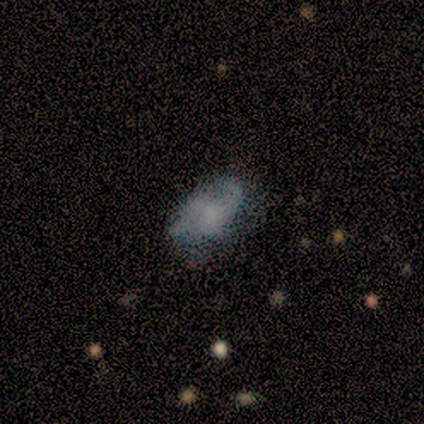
Smooth or featured?
  - smooth: 50% *
  - featured or disk: 38%
  - star or artifact: 12%
How rounded?
  - in between: 100% *
  - round: 0%
  - cigar-shaped: 0%
Merging?
  - major disturbance: 57% *
  - none: 43%
  - minor disturbance: 0%
  - merger: 0%